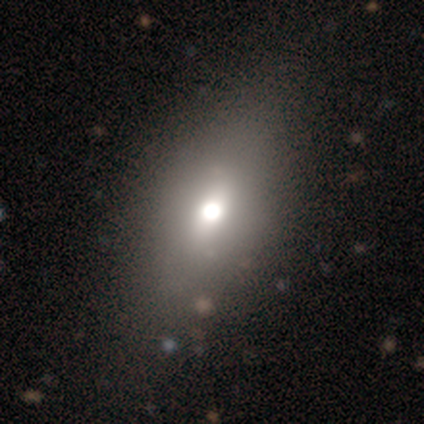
Smooth or featured? 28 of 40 (70%) said smooth. How rounded? 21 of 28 (75%) said in between. Merging? 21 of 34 (62%) said none.